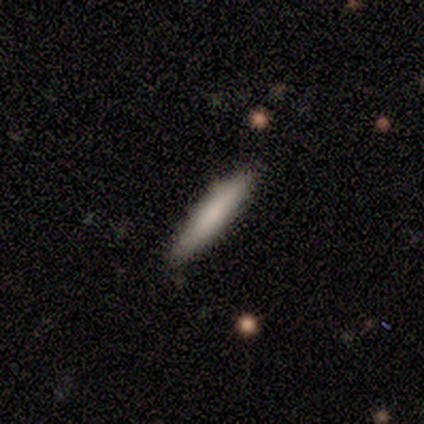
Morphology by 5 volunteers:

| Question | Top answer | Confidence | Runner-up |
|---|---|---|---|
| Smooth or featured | smooth | 100% | — |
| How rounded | cigar-shaped | 100% | — |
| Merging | none | 100% | — |